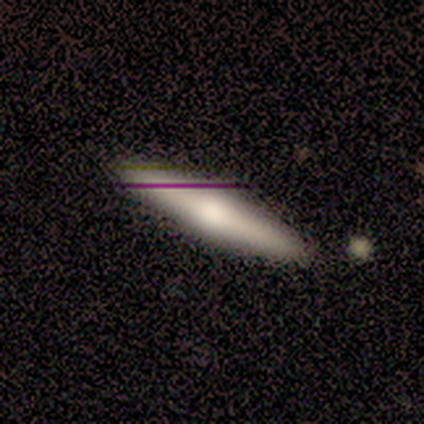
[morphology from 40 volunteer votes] Q: Smooth or featured?
A: featured or disk (50%); runner-up: smooth (48%)
Q: Edge-on disk?
A: yes (95%); runner-up: no (5%)
Q: Edge-on bulge?
A: rounded (68%); runner-up: none (21%)
Q: Merging?
A: none (90%); runner-up: minor disturbance (5%)